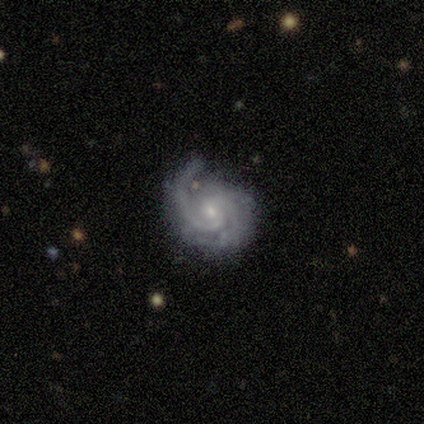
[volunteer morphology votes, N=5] Smooth or featured?
  - featured or disk: 100% *
  - smooth: 0%
  - star or artifact: 0%
Edge-on disk?
  - no: 80% *
  - yes: 20%
Bar?
  - no: 75% *
  - strong: 25%
  - weak: 0%
Spiral arms?
  - yes: 100% *
  - no: 0%
Spiral winding?
  - medium: 100% *
  - tight: 0%
  - loose: 0%
Spiral arm count?
  - 2: 75% *
  - 1: 25%
  - 3: 0%
  - 4: 0%
  - more than 4: 0%
  - can't tell: 0%
Bulge size?
  - small: 100% *
  - dominant: 0%
  - large: 0%
  - moderate: 0%
  - none: 0%
Merging?
  - none: 60% *
  - minor disturbance: 20%
  - major disturbance: 20%
  - merger: 0%